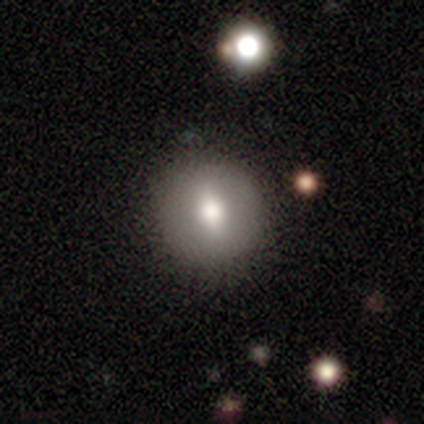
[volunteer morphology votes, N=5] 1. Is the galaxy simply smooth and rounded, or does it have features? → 60% smooth, 40% featured or disk, 0% star or artifact.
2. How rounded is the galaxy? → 67% round, 33% in between, 0% cigar-shaped.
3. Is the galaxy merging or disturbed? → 80% none, 20% minor disturbance, 0% major disturbance, 0% merger.